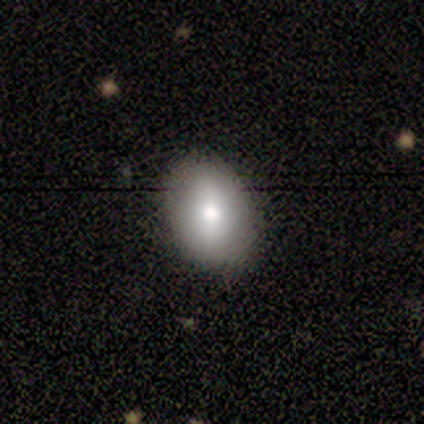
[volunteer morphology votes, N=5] Smooth or featured? smooth (100%)
How rounded? in between (80%)
Merging? none (100%)